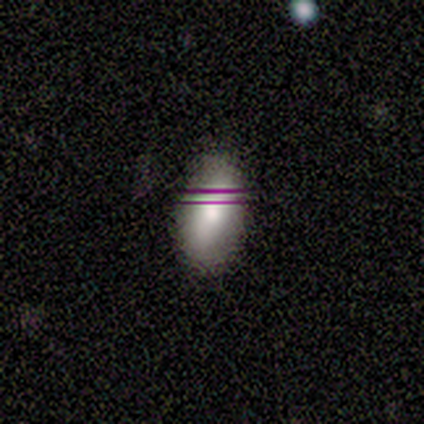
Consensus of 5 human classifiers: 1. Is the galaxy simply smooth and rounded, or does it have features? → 100% smooth, 0% featured or disk, 0% star or artifact.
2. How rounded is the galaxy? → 80% in between, 20% cigar-shaped, 0% round.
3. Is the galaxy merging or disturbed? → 80% none, 20% minor disturbance, 0% major disturbance, 0% merger.